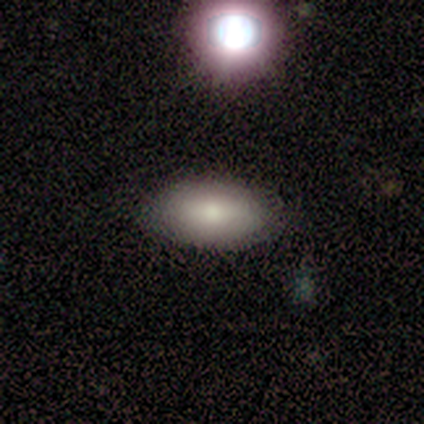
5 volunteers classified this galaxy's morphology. smooth 100%, featured or disk 0%, star or artifact 0%. Down the decision tree: how rounded — in between (80%); merging — minor disturbance (60%).